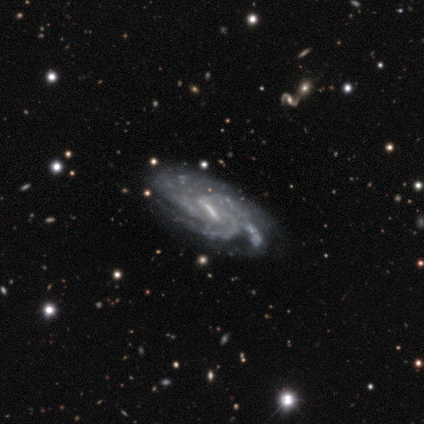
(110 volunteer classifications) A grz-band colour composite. It shows a featured or disk galaxy (93%) with a weak bar (51%), 3 (36%) tight (58%) spiral arms (100%) and no central bulge (38%). Merging: none (48%).